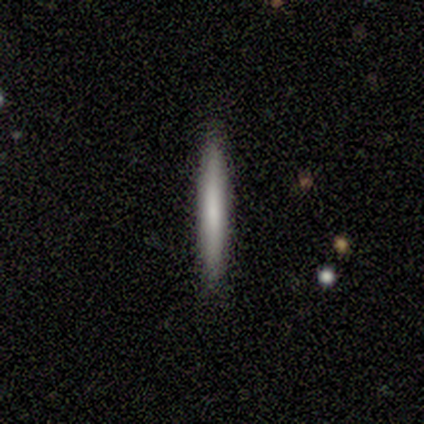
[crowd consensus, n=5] Morphology: type=smooth (60%); roundness=cigar-shaped (100%); merging=none (100%).